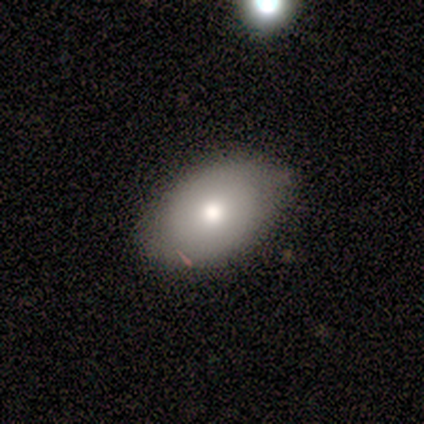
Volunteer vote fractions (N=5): This appears to be a smooth galaxy with no disk features (100%) that is in between round and cigar-shaped (100%). Merging: none (80%).